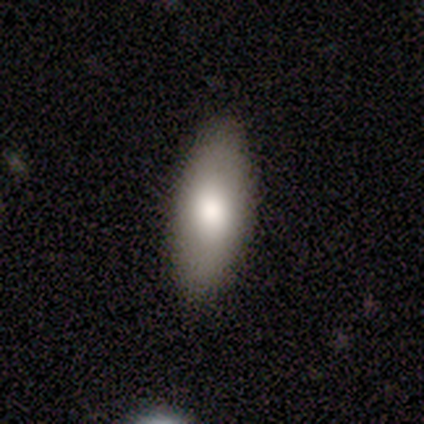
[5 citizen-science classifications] Smooth or featured? smooth (80%)
How rounded? in between (75%)
Merging? none (80%)